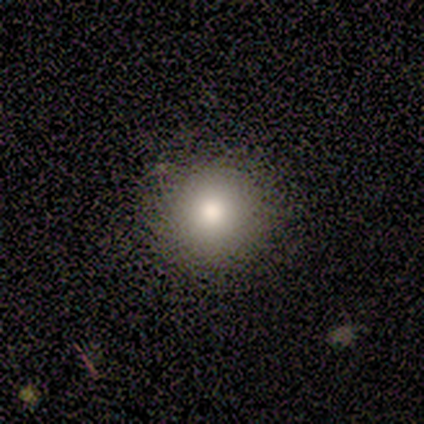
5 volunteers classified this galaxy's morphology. type=smooth (100%); roundness=round (100%); merging=none (80%).